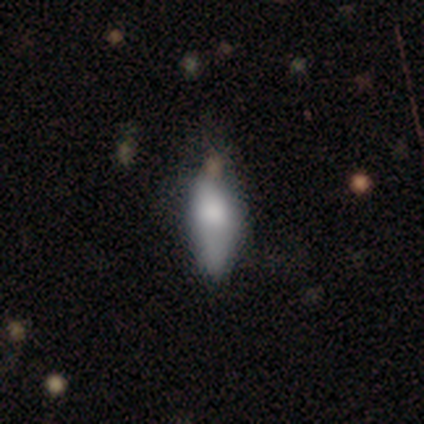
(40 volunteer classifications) Smooth or featured? 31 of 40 (78%) said smooth. How rounded? 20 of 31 (65%) said in between. Merging? 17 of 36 (47%) said minor disturbance.